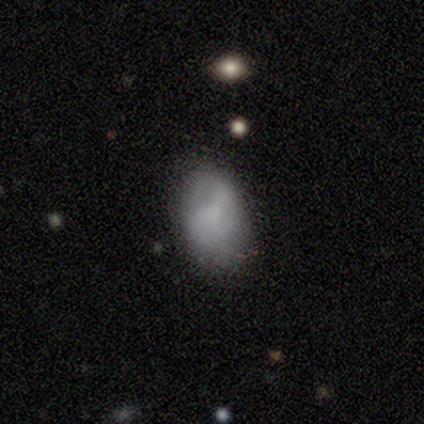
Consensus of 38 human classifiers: Morphology: type=smooth (82%); roundness=in between (94%); merging=none (69%).